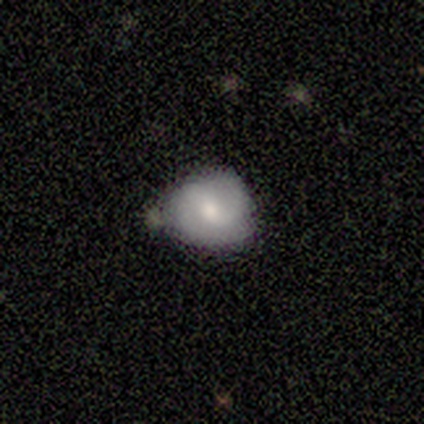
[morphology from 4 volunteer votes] type=smooth (50%, tied with featured or disk); roundness=round (50%, tied with in between); merging=none (75%).